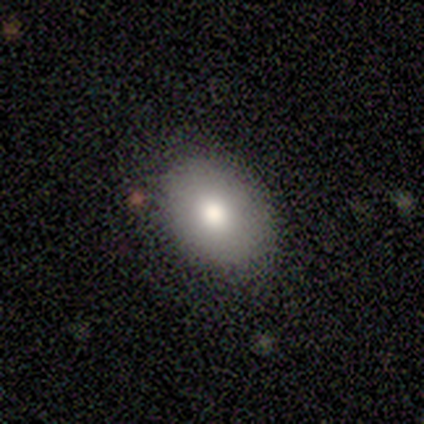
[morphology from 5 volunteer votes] Smooth or featured?
  - smooth: 80% *
  - star or artifact: 20%
  - featured or disk: 0%
How rounded?
  - in between: 100% *
  - round: 0%
  - cigar-shaped: 0%
Merging?
  - none: 75% *
  - minor disturbance: 25%
  - major disturbance: 0%
  - merger: 0%